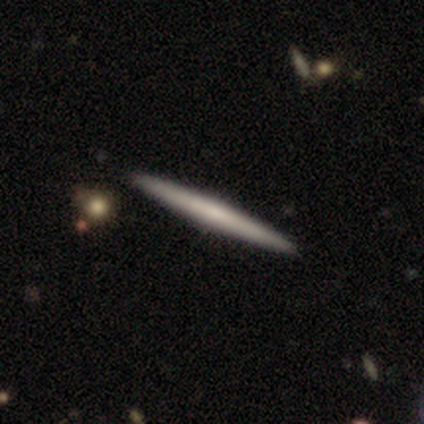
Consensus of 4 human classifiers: Smooth or featured: featured or disk — 75% (smooth — 25%)
Edge-on disk: yes — 100%
Edge-on bulge: none — 67% (rounded — 33%)
Merging: none — 100%